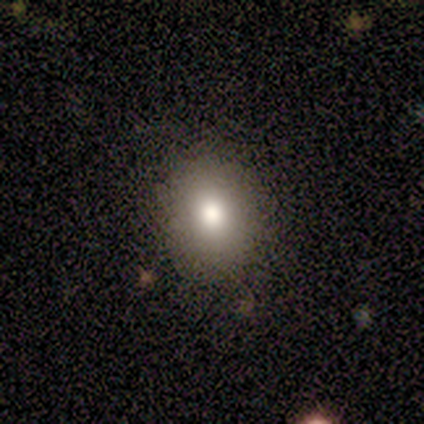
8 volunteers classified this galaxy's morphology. Overall: smooth (88%). How rounded: in between (57%; round 43%). Merging: none (88%).